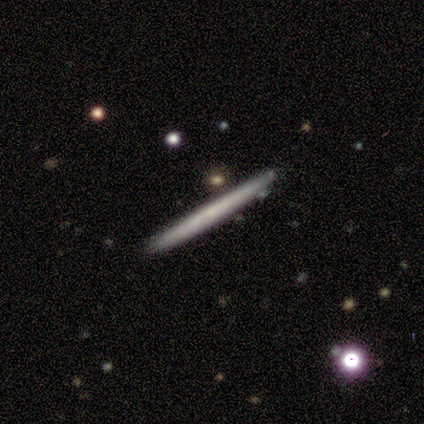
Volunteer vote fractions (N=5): Overall: smooth (80%). How rounded: cigar-shaped (100%). Merging: none (100%).